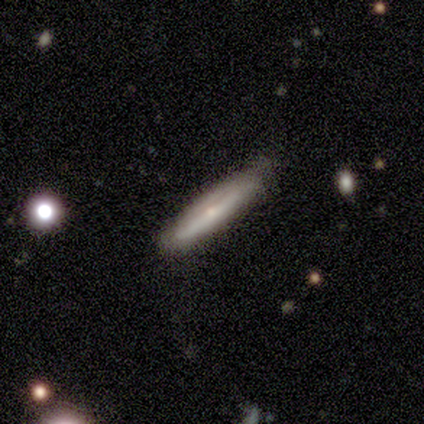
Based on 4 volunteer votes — Q: Smooth or featured?
A: featured or disk (75%); runner-up: smooth (25%)
Q: Edge-on disk?
A: yes (67%); runner-up: no (33%)
Q: Edge-on bulge?
A: boxy (50%); tied with: rounded (50%)
Q: Merging?
A: major disturbance (50%); runner-up: none (25%)